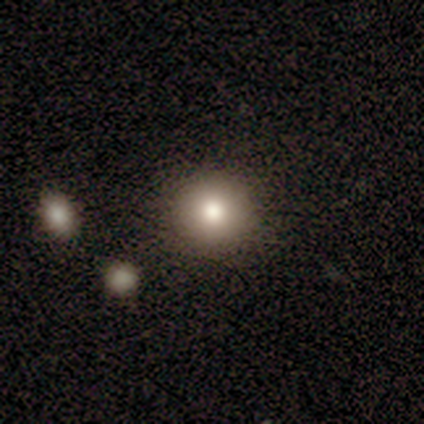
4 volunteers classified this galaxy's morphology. Smooth or featured? smooth (100%)
How rounded? round (100%)
Merging? none (100%)